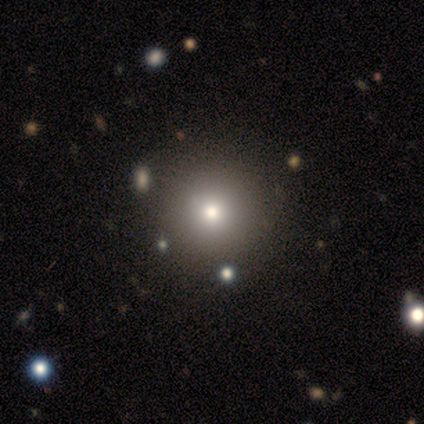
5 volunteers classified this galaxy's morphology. This appears to be a smooth galaxy with no disk features (80%) that is round (100%). Merging: none (80%).